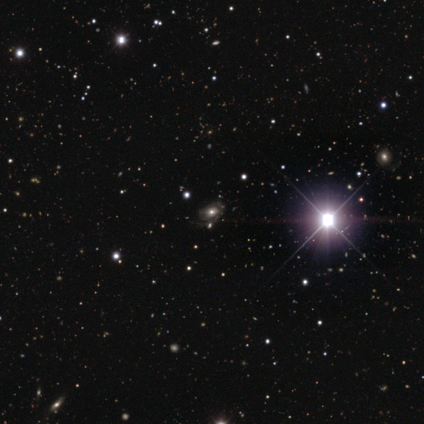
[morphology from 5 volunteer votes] smooth 40% (tied), featured or disk 40% (tied), star or artifact 20%. Down the decision tree: how rounded — in between (100%); merging — none (75%).